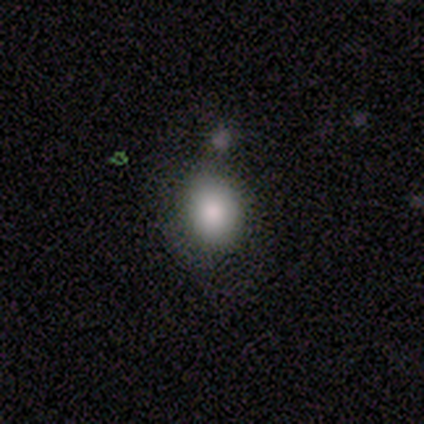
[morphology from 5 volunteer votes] Q: Smooth or featured?
A: smooth (80%); runner-up: star or artifact (20%)
Q: How rounded?
A: round (50%); tied with: in between (50%)
Q: Merging?
A: none (50%); tied with: minor disturbance (50%)